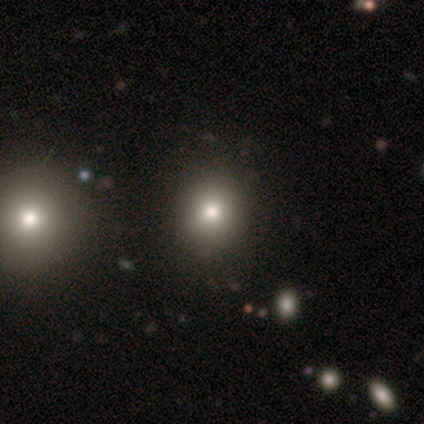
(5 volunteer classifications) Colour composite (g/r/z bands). It shows a smooth galaxy with no disk features (60%) that is round (67%). Merging: none (100%).